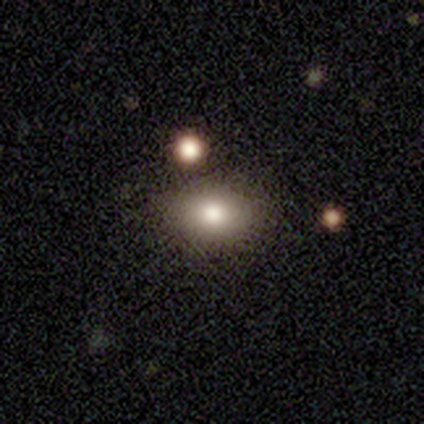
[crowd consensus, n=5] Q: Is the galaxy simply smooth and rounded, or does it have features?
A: smooth — 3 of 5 (60%).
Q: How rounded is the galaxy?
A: in between — 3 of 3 (100%).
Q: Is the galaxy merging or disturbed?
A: none — 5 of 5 (100%).